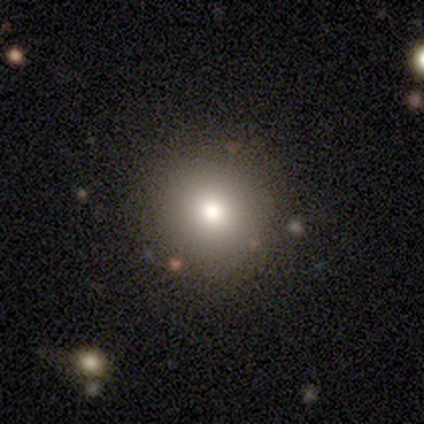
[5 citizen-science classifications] Smooth or featured: smooth — 80% (star or artifact — 20%)
How rounded: round — 100%
Merging: none — 100%